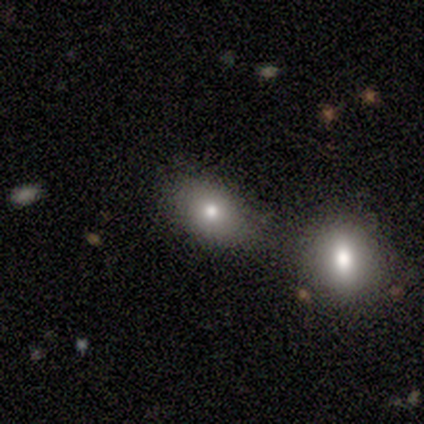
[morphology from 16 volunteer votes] A smooth galaxy with no disk features (81%) that is in between round and cigar-shaped (62%). Merging: none (64%).